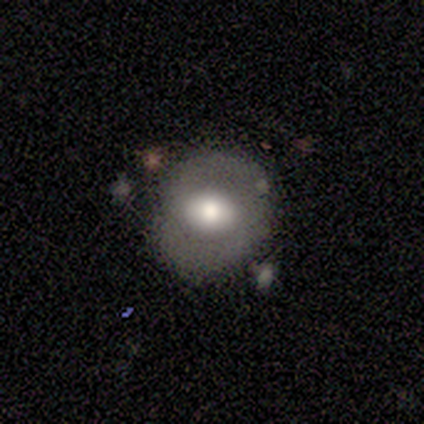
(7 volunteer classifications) smooth-or-featured: smooth: 57% | featured or disk: 43% | star or artifact: 0%
  how-rounded: round: 75% | in between: 25% | cigar-shaped: 0%
  merging: none: 71% | minor disturbance: 29% | major disturbance: 0% | merger: 0%